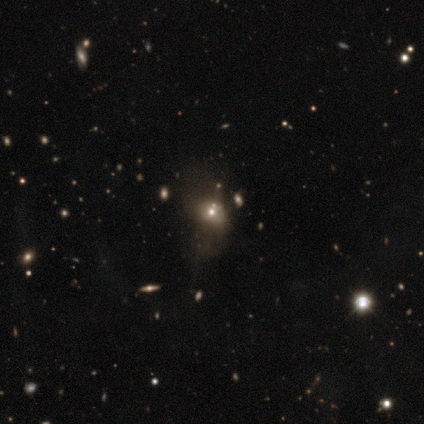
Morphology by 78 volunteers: smooth-or-featured: smooth: 49% | star or artifact: 27% | featured or disk: 24%
  how-rounded: round: 55% | in between: 42% | cigar-shaped: 3%
  merging: none: 21% | major disturbance: 16% | merger: 11% | minor disturbance: 9%